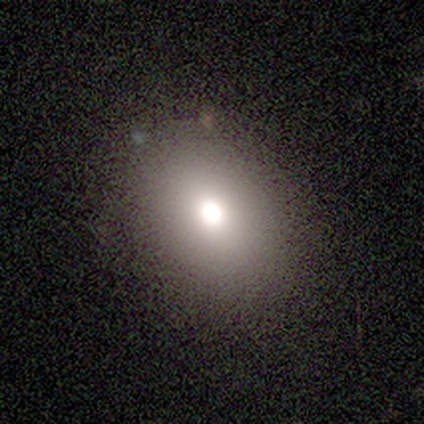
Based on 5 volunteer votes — smooth_or_featured: smooth (p=0.60) [alt: featured or disk p=0.20]
how_rounded: in between (p=1.00)
merging: none (p=0.75) [alt: minor disturbance p=0.25]